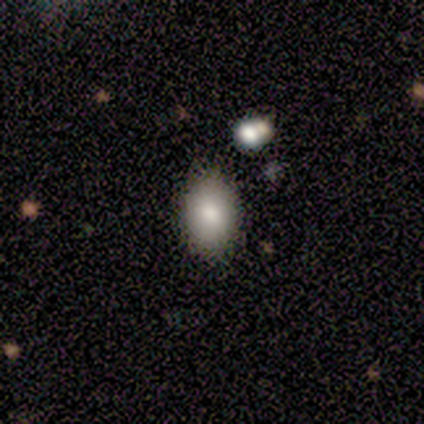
Overall: smooth (75%). How rounded: in between (100%). Merging: none (75%).